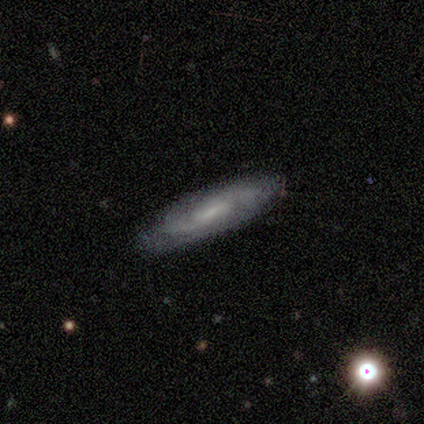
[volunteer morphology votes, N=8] A featured or disk galaxy (88%) viewed edge-on (57%) with no central bulge (100%).

Vote fractions:
- Smooth or featured? featured or disk: 88% / star or artifact: 12% / smooth: 0%
- Edge-on disk? yes: 57% / no: 43%
- Edge-on bulge? none: 100% / boxy: 0% / rounded: 0%
- Merging? none: 86% / minor disturbance: 14% / major disturbance: 0% / merger: 0%